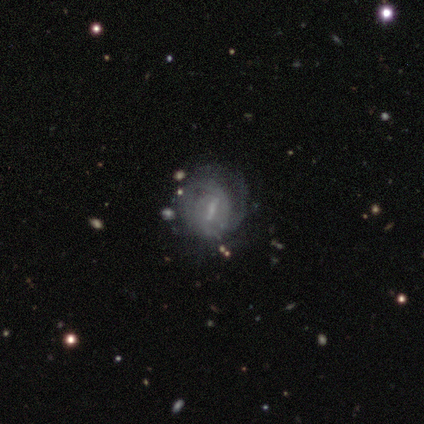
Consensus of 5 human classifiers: smooth-or-featured: featured or disk: 80% | smooth: 20% | star or artifact: 0%
  disk-edge-on: no: 100% | yes: 0%
    bar: weak: 50% | strong: 25% | no: 25%
    has-spiral-arms: yes: 50% (tied) | no: 50% (tied)
      spiral-winding: tight: 50% (tied) | medium: 50% (tied) | loose: 0%
      spiral-arm-count: 1: 50% (tied) | 2: 50% (tied) | 3: 0% | 4: 0% | more than 4: 0% | can't tell: 0%
    bulge-size: small: 50% | moderate: 25% | none: 25% | dominant: 0% | large: 0%
  merging: minor disturbance: 60% | major disturbance: 40% | none: 0% | merger: 0%